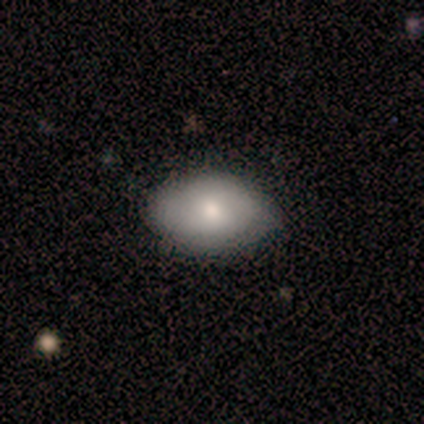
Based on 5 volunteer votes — A smooth galaxy with no disk features (100%) that is in between round and cigar-shaped (100%).

Vote fractions:
- Smooth or featured? smooth: 100% / featured or disk: 0% / star or artifact: 0%
- How rounded? in between: 100% / round: 0% / cigar-shaped: 0%
- Merging? none: 100% / minor disturbance: 0% / major disturbance: 0% / merger: 0%